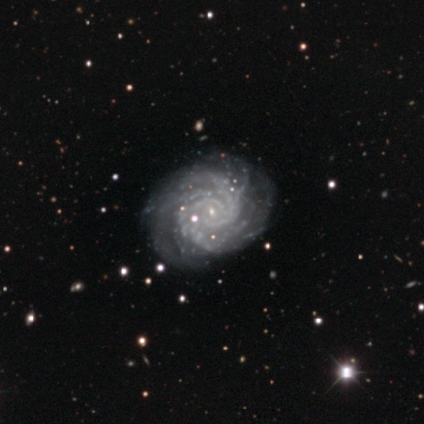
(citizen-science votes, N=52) Smooth or featured: featured or disk — 90% (star or artifact — 8%)
Edge-on disk: no — 100%
Bar: no — 72% (weak — 17%)
Spiral arms: yes — 100%
Spiral winding: tight — 83% (medium — 13%)
Spiral arm count: more than 4 — 28% (tied with can't tell — 28%)
Bulge size: small — 89% (none — 9%)
Merging: none — 75% (minor disturbance — 21%)